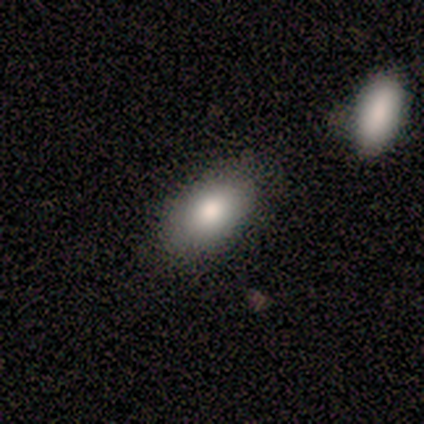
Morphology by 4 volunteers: Smooth or featured?
  - smooth: 50% * (tied)
  - featured or disk: 50% * (tied)
  - star or artifact: 0%
How rounded?
  - in between: 100% *
  - round: 0%
  - cigar-shaped: 0%
Merging?
  - none: 75% *
  - minor disturbance: 25%
  - major disturbance: 0%
  - merger: 0%